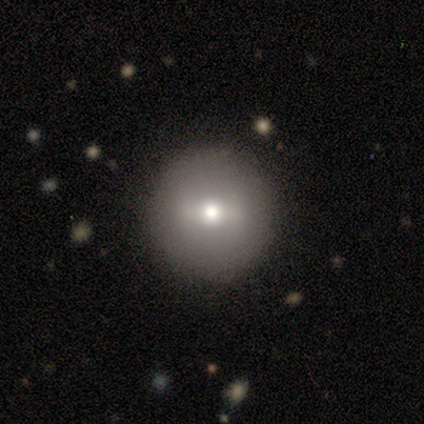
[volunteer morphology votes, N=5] smooth_or_featured: featured or disk (p=0.80) [alt: smooth p=0.20]
disk_edge_on: no (p=1.00)
bar: no (p=0.50) [alt: strong p=0.25]
has_spiral_arms: no (p=1.00)
bulge_size: moderate (p=1.00)
merging: none (p=0.80) [alt: minor disturbance p=0.20]